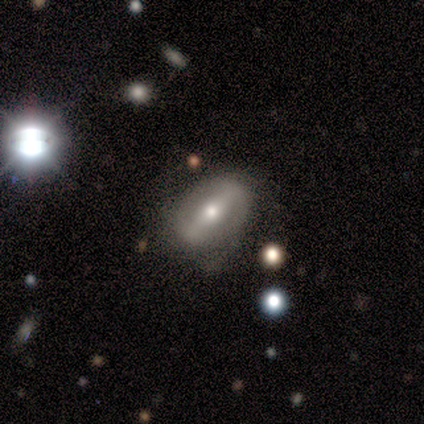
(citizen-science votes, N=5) Smooth or featured? featured or disk (80%)
Edge-on disk? no (75%)
Bar? strong (67%)
Spiral arms? no (100%)
Bulge size? moderate (67%)
Merging? none (40%, tied with minor disturbance)